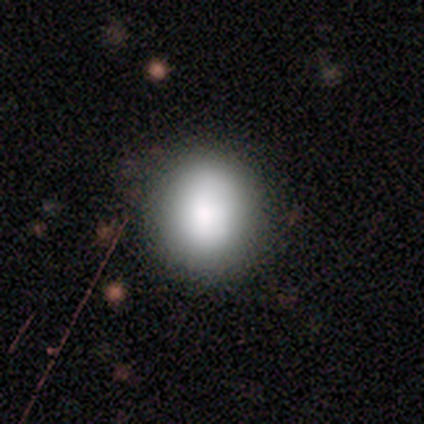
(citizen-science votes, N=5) Smooth or featured? smooth (100%)
How rounded? round (80%)
Merging? none (80%)